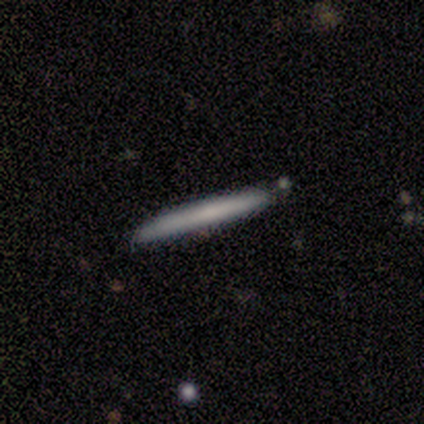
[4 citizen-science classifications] Q: Smooth or featured?
A: smooth (50%); runner-up: featured or disk (25%)
Q: How rounded?
A: cigar-shaped (100%)
Q: Merging?
A: none (100%)